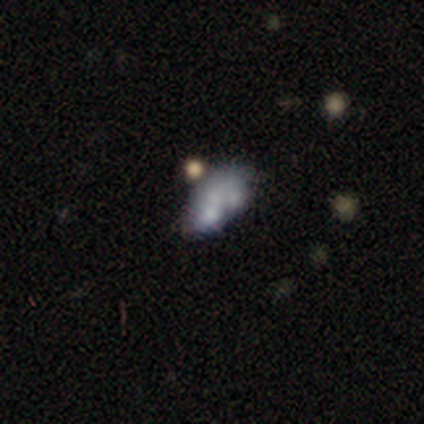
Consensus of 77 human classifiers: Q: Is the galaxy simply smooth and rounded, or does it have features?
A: featured or disk — 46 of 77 (60%).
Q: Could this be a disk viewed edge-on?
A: no — 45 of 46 (98%).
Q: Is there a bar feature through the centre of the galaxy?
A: no — 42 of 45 (93%).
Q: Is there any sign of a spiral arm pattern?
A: no — 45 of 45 (100%).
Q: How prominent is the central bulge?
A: none — 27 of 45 (60%).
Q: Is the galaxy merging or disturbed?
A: merger — 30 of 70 (43%).